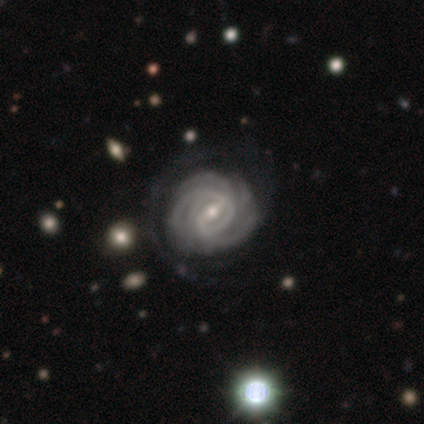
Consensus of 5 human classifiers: Q: Smooth or featured?
A: featured or disk (100%)
Q: Edge-on disk?
A: no (100%)
Q: Bar?
A: strong (60%); runner-up: weak (20%)
Q: Spiral arms?
A: yes (100%)
Q: Spiral winding?
A: tight (80%); runner-up: medium (20%)
Q: Spiral arm count?
A: more than 4 (40%); runner-up: 3 (20%)
Q: Bulge size?
A: moderate (60%); runner-up: small (40%)
Q: Merging?
A: none (100%)